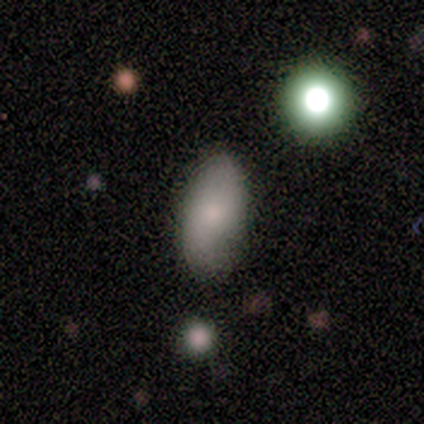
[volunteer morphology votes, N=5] A smooth galaxy with no disk features (40%, tied with featured or disk) that is in between round and cigar-shaped (100%). Merging: none (100%).